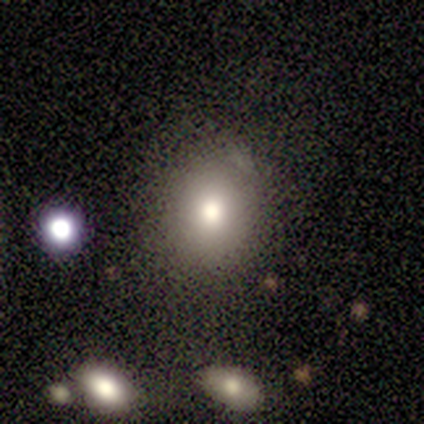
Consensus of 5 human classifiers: Smooth or featured? smooth (100%)
How rounded? round (100%)
Merging? none (100%)